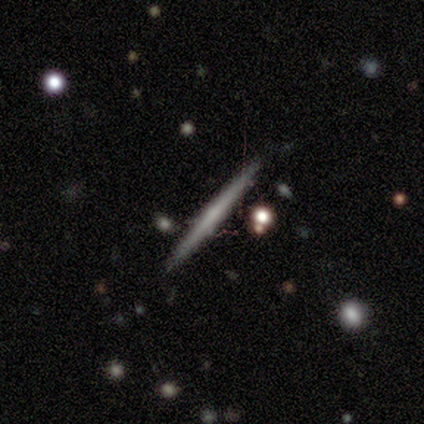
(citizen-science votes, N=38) This is likely a featured or disk galaxy (71%). It is clearly viewed edge-on (100%). Edge-on bulge: likely none (74%). Merging: clearly none (95%).